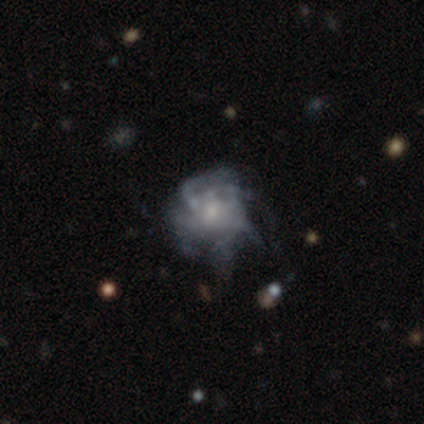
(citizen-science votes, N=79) Q: Smooth or featured?
A: featured or disk (85%); runner-up: smooth (11%)
Q: Edge-on disk?
A: no (99%); runner-up: yes (1%)
Q: Bar?
A: no (82%); runner-up: weak (15%)
Q: Spiral arms?
A: yes (70%); runner-up: no (30%)
Q: Spiral winding?
A: tight (41%); runner-up: medium (35%)
Q: Spiral arm count?
A: can't tell (61%); runner-up: more than 4 (26%)
Q: Bulge size?
A: small (44%); runner-up: moderate (33%)
Q: Merging?
A: none (24%); runner-up: minor disturbance (16%)